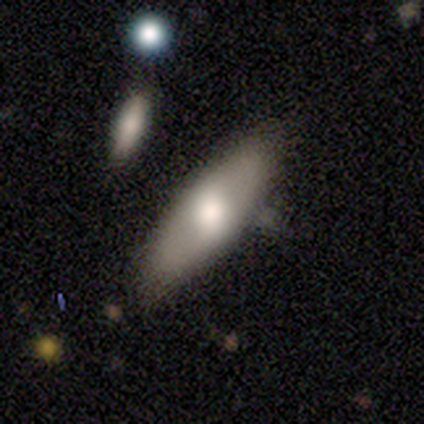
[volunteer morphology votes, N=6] Overall: smooth (67%). How rounded: in between (50%, tied with cigar-shaped). Merging: none (100%).